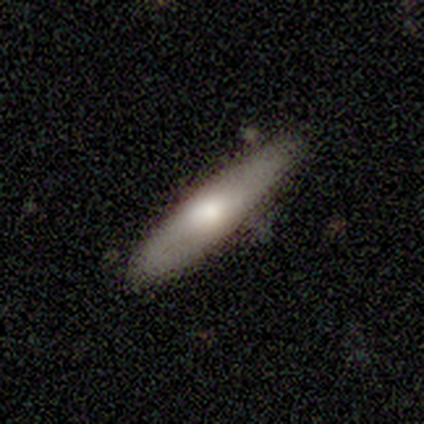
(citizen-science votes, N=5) Smooth or featured? smooth (60%)
How rounded? cigar-shaped (67%)
Merging? none (80%)